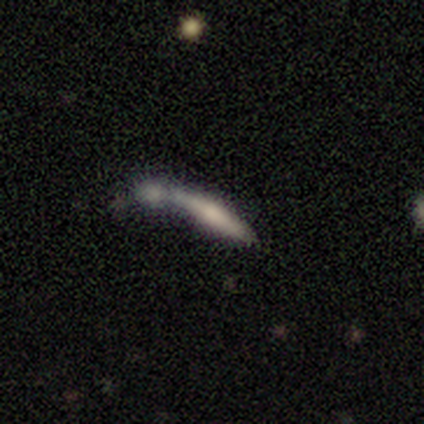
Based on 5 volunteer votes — Smooth or featured? 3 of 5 (60%) said smooth. How rounded? 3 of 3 (100%) said cigar-shaped. Merging? 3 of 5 (60%) said merger.